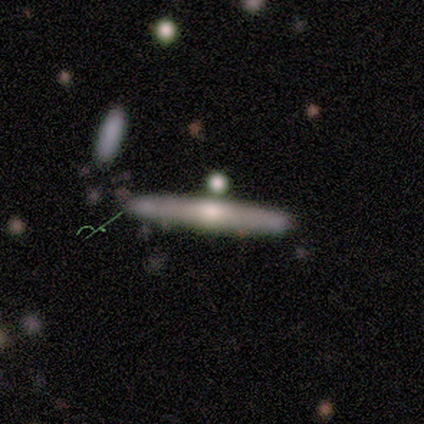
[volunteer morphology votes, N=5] type=featured or disk (60%); edge-on=yes (100%); edge-on bulge=rounded (67%); merging=none (80%).